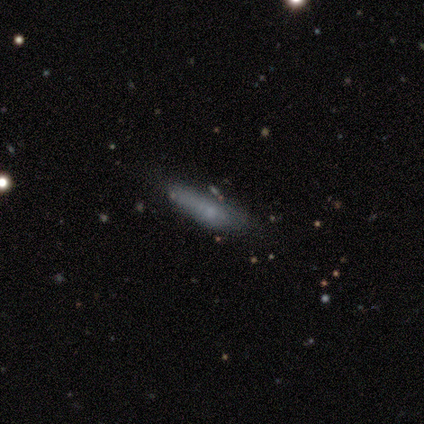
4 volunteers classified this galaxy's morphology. smooth 100%, featured or disk 0%, star or artifact 0%. Down the decision tree: how rounded — cigar-shaped (75%); merging — none (75%).